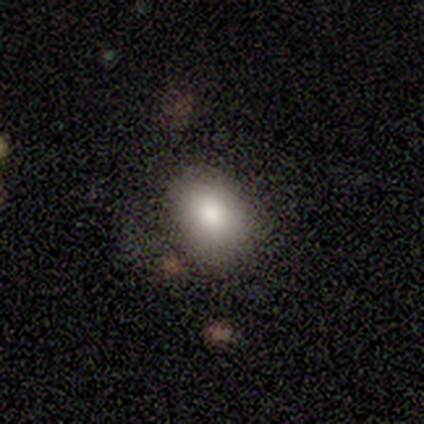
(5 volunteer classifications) This is clearly a smooth galaxy (80%). How rounded: likely in between (75%). Merging: clearly none (100%).